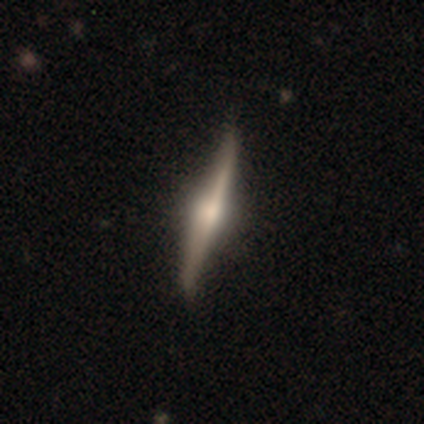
smooth-or-featured: featured or disk: 91% | smooth: 9% | star or artifact: 0%
  disk-edge-on: yes: 100% | no: 0%
    edge-on-bulge: rounded: 90% | boxy: 10% | none: 0%
  merging: none: 100% | minor disturbance: 0% | major disturbance: 0% | merger: 0%